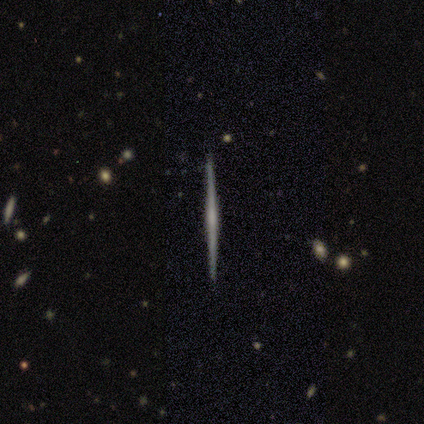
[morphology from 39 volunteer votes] Q: Smooth or featured?
A: featured or disk (82%); runner-up: smooth (18%)
Q: Edge-on disk?
A: yes (100%)
Q: Edge-on bulge?
A: none (62%); runner-up: rounded (25%)
Q: Merging?
A: none (90%); runner-up: minor disturbance (8%)